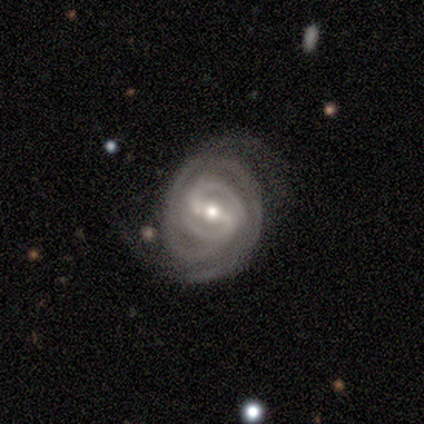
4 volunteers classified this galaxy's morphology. Volunteers were most divided on "spiral arm count": 2: 50%, 3: 25%, 4: 25%, 1: 0%, more than 4: 0%, can't tell: 0%. More confident: smooth or featured — featured or disk (100%); edge-on disk — no (100%); spiral arms — yes (100%); bar — strong (75%); spiral winding — tight (75%); bulge size — moderate (75%); merging — none (50%).